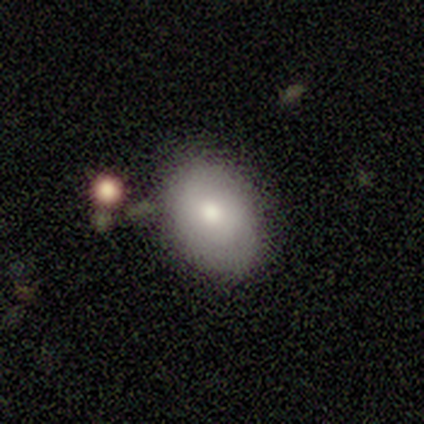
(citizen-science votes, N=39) smooth-or-featured: smooth: 69% | featured or disk: 18% | star or artifact: 13%
  how-rounded: in between: 70% | round: 30% | cigar-shaped: 0%
  merging: none: 65% | minor disturbance: 24% | merger: 9% | major disturbance: 3%